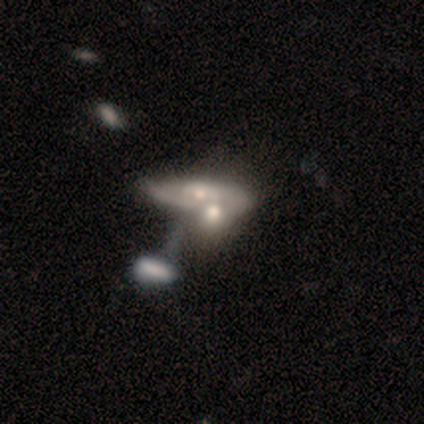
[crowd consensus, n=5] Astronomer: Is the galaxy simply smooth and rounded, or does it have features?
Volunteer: smooth — 40%, tied with featured or disk at 40%.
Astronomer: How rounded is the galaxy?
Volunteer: in between — 50%, tied with cigar-shaped at 50%.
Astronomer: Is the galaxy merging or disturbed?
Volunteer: merger — 100%.